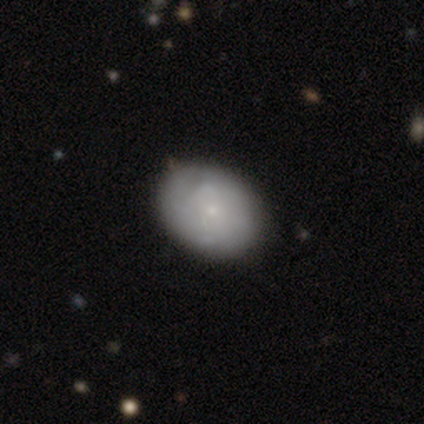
Smooth or featured: smooth — 60% (featured or disk — 20%)
How rounded: in between — 100%
Merging: none — 50% (minor disturbance — 25%)